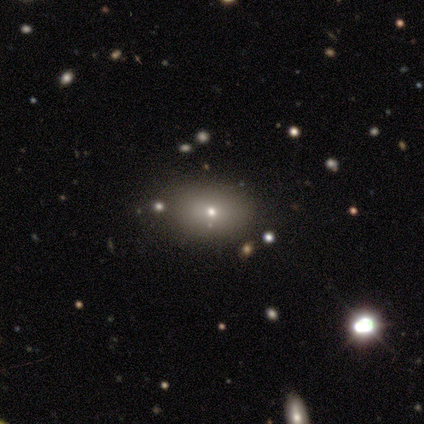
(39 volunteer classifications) smooth-or-featured: smooth: 54% | star or artifact: 28% | featured or disk: 18%
  how-rounded: in between: 67% | round: 33% | cigar-shaped: 0%
  merging: none: 86% | minor disturbance: 7% | major disturbance: 4% | merger: 4%